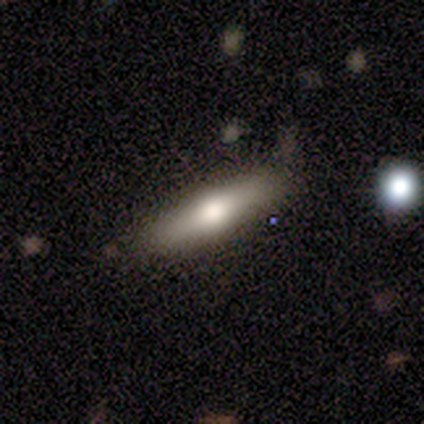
smooth_or_featured: smooth (p=0.64) [alt: featured or disk p=0.36]
how_rounded: cigar-shaped (p=0.86) [alt: in between p=0.14]
merging: none (p=0.73) [alt: minor disturbance p=0.27]